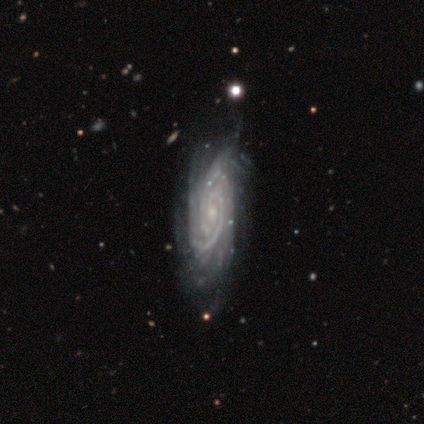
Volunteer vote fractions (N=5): A featured or disk galaxy (100%) with no bar (75%), 3 (50%) tight (50%, tied with medium) spiral arms (100%) and a small central bulge (100%). Merging: minor disturbance (80%).